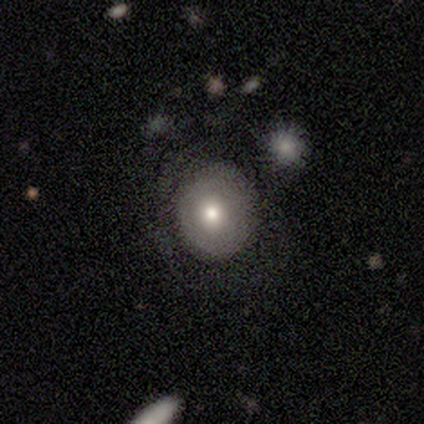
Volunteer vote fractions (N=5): Smooth or featured: smooth — 100%
How rounded: round — 60% (in between — 20%)
Merging: none — 60% (minor disturbance — 20%)